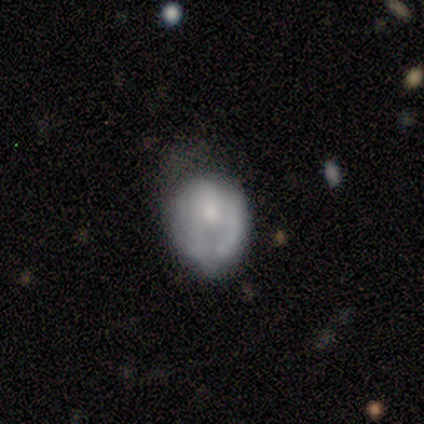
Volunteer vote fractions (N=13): smooth 54%, featured or disk 46%, star or artifact 0%. Down the decision tree: how rounded — round (57%); merging — minor disturbance (85%).